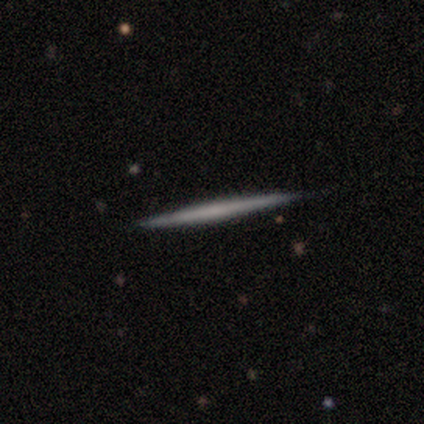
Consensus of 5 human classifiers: smooth-or-featured: featured or disk: 60% | smooth: 40% | star or artifact: 0%
  disk-edge-on: yes: 100% | no: 0%
    edge-on-bulge: none: 100% | boxy: 0% | rounded: 0%
  merging: none: 60% | minor disturbance: 40% | major disturbance: 0% | merger: 0%